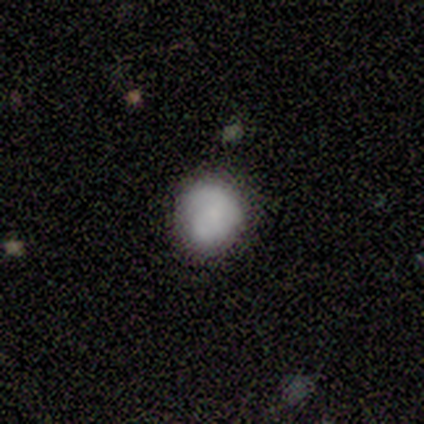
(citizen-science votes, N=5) Smooth or featured?
  - smooth: 60% *
  - featured or disk: 20%
  - star or artifact: 20%
How rounded?
  - round: 100% *
  - in between: 0%
  - cigar-shaped: 0%
Merging?
  - none: 100% *
  - minor disturbance: 0%
  - major disturbance: 0%
  - merger: 0%